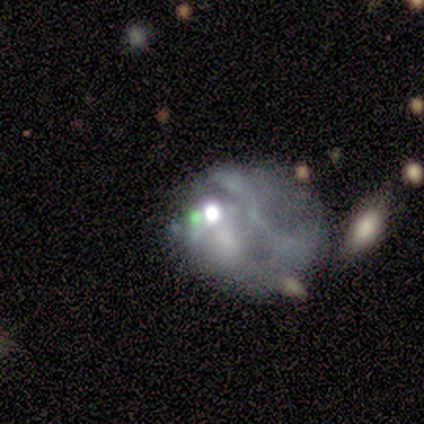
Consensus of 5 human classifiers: smooth_or_featured: featured or disk (p=0.40) [tied with: star or artifact p=0.40]
disk_edge_on: no (p=1.00)
bar: no (p=1.00)
has_spiral_arms: no (p=1.00)
bulge_size: moderate (p=0.50) [tied with: none p=0.50]
merging: none (p=0.33) [tied with: minor disturbance p=0.33, major disturbance p=0.33]